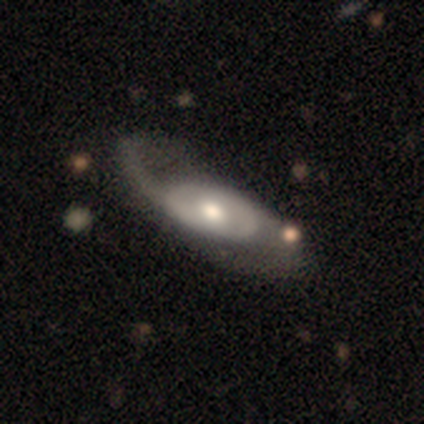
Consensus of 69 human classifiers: smooth_or_featured: featured or disk (p=0.81) [alt: smooth p=0.16]
disk_edge_on: no (p=0.86) [alt: yes p=0.14]
bar: no (p=0.67) [alt: weak p=0.27]
has_spiral_arms: yes (p=0.83) [alt: no p=0.17]
spiral_winding: medium (p=0.45) [alt: loose p=0.42]
spiral_arm_count: 2 (p=0.75) [alt: 1 p=0.17]
bulge_size: moderate (p=0.54) [alt: large p=0.21]
merging: none (p=0.40) [alt: major disturbance p=0.27]